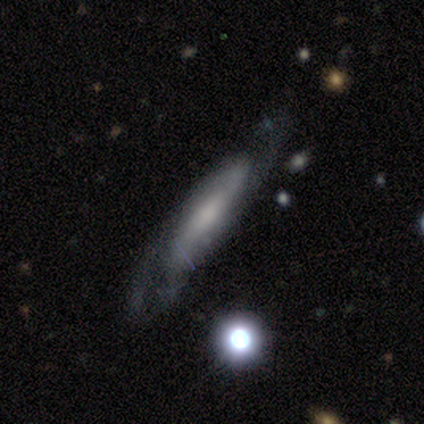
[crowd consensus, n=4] smooth-or-featured: featured or disk: 50% | smooth: 25% | star or artifact: 25%
  disk-edge-on: yes: 50% (tied) | no: 50% (tied)
    edge-on-bulge: none: 100% | boxy: 0% | rounded: 0%
  merging: minor disturbance: 100% | none: 0% | major disturbance: 0% | merger: 0%